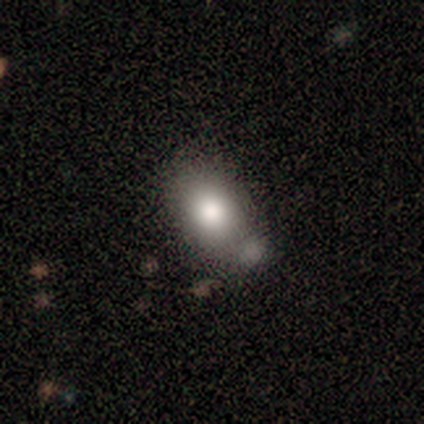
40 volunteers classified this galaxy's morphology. Smooth or featured? 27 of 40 (68%) said smooth. How rounded? 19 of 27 (70%) said in between. Merging? 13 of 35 (37%) said none.